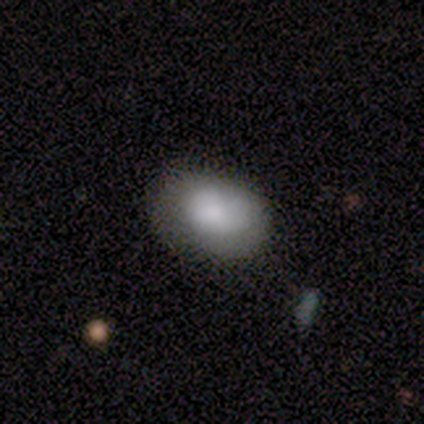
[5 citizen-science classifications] A smooth galaxy with no disk features (100%) that is in between round and cigar-shaped (80%).

Vote fractions:
- Smooth or featured? smooth: 100% / featured or disk: 0% / star or artifact: 0%
- How rounded? in between: 80% / round: 20% / cigar-shaped: 0%
- Merging? none: 80% / minor disturbance: 20% / major disturbance: 0% / merger: 0%